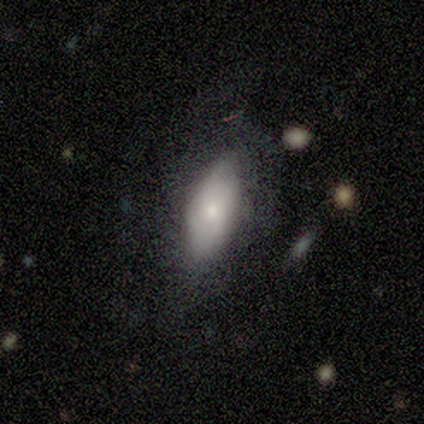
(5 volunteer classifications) smooth_or_featured: featured or disk (p=0.60) [alt: smooth p=0.40]
disk_edge_on: no (p=1.00)
bar: no (p=1.00)
has_spiral_arms: no (p=1.00)
bulge_size: small (p=1.00)
merging: none (p=0.80) [alt: major disturbance p=0.20]